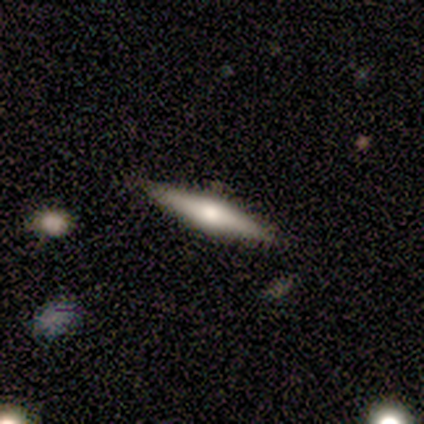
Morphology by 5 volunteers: Overall: featured or disk (60%; smooth 40%). Edge-on disk: yes (100%). Edge-on bulge: rounded (100%). Merging: none (80%).